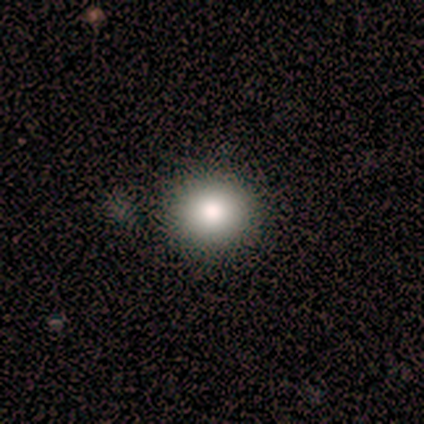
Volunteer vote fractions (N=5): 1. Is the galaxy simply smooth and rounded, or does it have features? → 40% smooth (tied), 40% star or artifact (tied), 20% featured or disk.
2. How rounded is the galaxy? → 100% round, 0% in between, 0% cigar-shaped.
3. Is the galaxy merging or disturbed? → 100% none, 0% minor disturbance, 0% major disturbance, 0% merger.